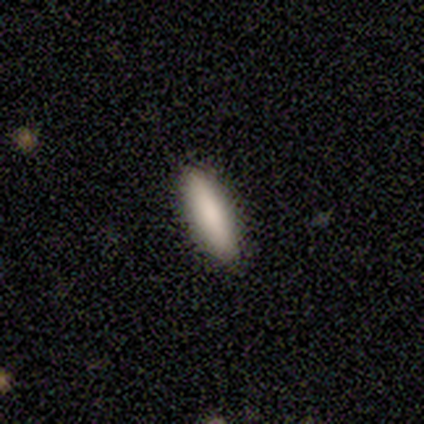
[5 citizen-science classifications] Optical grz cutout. It shows a smooth galaxy with no disk features (60%) that is in between round and cigar-shaped (67%). Merging: none (75%).